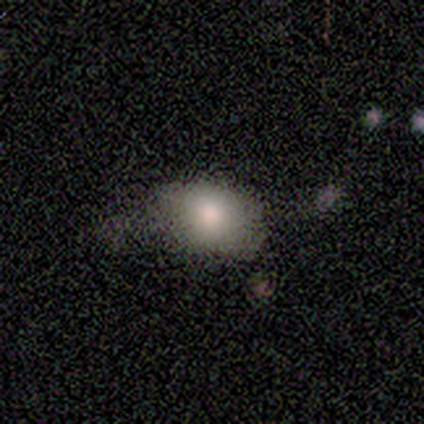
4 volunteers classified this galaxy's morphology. Volunteers were most divided on "how rounded": in between: 75%, round: 25%, cigar-shaped: 0%. More confident: smooth or featured — smooth (100%); merging — minor disturbance (75%).